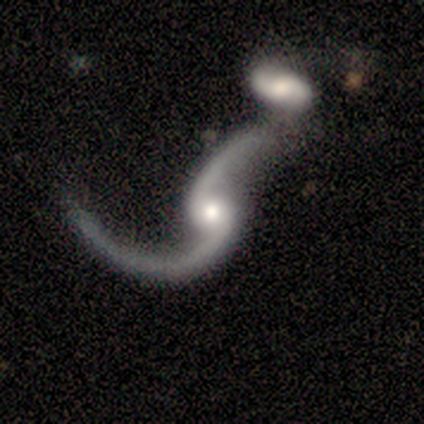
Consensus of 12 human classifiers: This is clearly a featured or disk galaxy (100%). It is clearly not viewed edge-on (100%). Bar: likely no (67%). Spiral arm pattern: clearly yes (92%). Spiral arm count: clearly 2 (100%). Spiral winding: clearly loose (100%). Central bulge: possibly moderate (58%). Merging: clearly merger (83%).